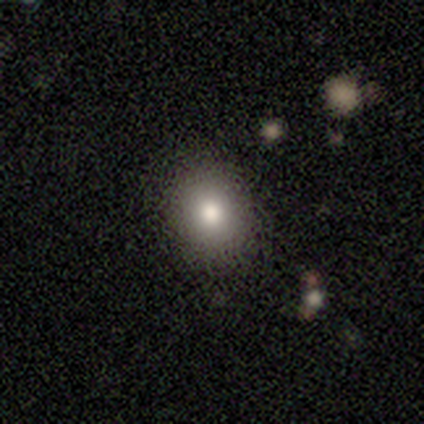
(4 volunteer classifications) A smooth galaxy with no disk features (50%, tied with featured or disk) that is round (50%, tied with in between).

Vote fractions:
- Smooth or featured? smooth: 50% (tied) / featured or disk: 50% (tied) / star or artifact: 0%
- How rounded? round: 50% (tied) / in between: 50% (tied) / cigar-shaped: 0%
- Merging? none: 100% / minor disturbance: 0% / major disturbance: 0% / merger: 0%